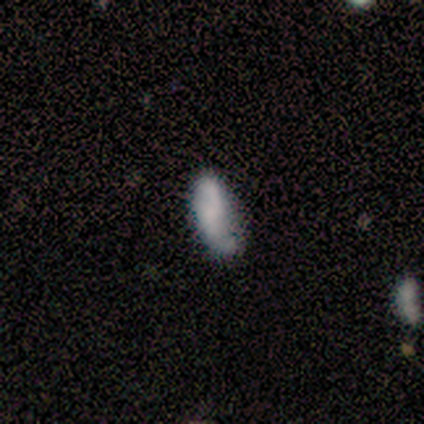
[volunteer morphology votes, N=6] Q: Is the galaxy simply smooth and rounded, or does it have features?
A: smooth — 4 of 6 (67%).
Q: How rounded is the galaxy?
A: in between — 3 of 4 (75%).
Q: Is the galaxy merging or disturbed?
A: none — 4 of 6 (67%).